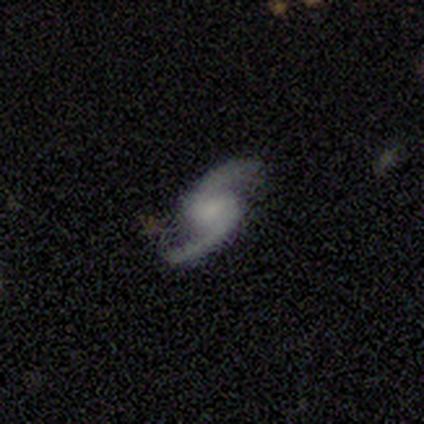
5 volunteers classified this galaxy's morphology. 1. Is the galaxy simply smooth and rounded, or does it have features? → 80% featured or disk, 20% star or artifact, 0% smooth.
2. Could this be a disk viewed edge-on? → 100% no, 0% yes.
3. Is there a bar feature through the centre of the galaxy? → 75% weak, 25% no, 0% strong.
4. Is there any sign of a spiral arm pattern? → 100% yes, 0% no.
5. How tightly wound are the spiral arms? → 50% medium, 25% tight, 25% loose.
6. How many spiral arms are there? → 100% 2, 0% 1, 0% 3, 0% 4, 0% more than 4, 0% can't tell.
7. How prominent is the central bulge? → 75% small, 25% none, 0% dominant, 0% large, 0% moderate.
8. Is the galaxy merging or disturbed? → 100% none, 0% minor disturbance, 0% major disturbance, 0% merger.